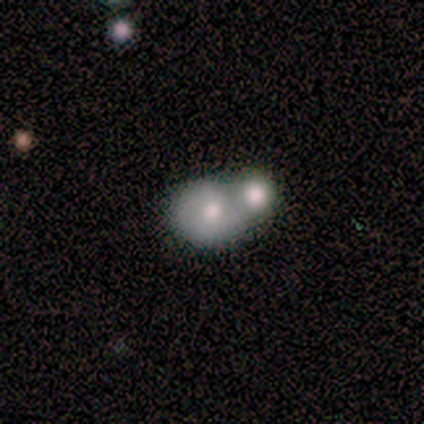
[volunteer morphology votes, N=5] Smooth or featured?
  - smooth: 60% *
  - featured or disk: 20%
  - star or artifact: 20%
How rounded?
  - round: 33% * (tied)
  - in between: 33% * (tied)
  - cigar-shaped: 33% * (tied)
Merging?
  - merger: 75% *
  - minor disturbance: 25%
  - none: 0%
  - major disturbance: 0%